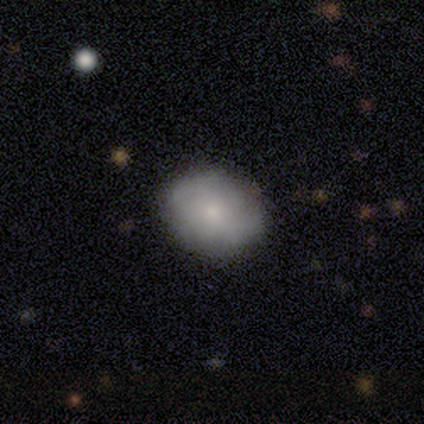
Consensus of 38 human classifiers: A smooth galaxy with no disk features (63%) that is round (54%).

Vote fractions:
- Smooth or featured? smooth: 63% / featured or disk: 32% / star or artifact: 5%
- How rounded? round: 54% / in between: 46% / cigar-shaped: 0%
- Merging? none: 56% / minor disturbance: 3% / major disturbance: 3% / merger: 0%